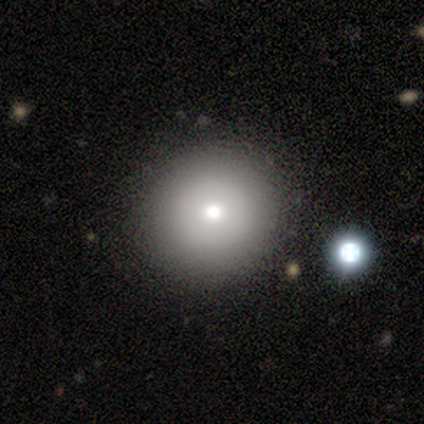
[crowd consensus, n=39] Overall: smooth (79%). How rounded: round (94%). Merging: none (62%).